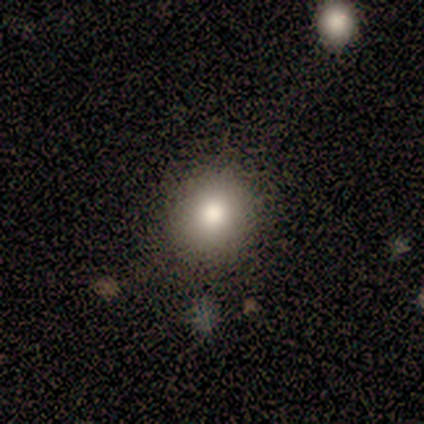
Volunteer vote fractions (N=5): Q: Smooth or featured?
A: smooth (100%)
Q: How rounded?
A: round (100%)
Q: Merging?
A: none (100%)